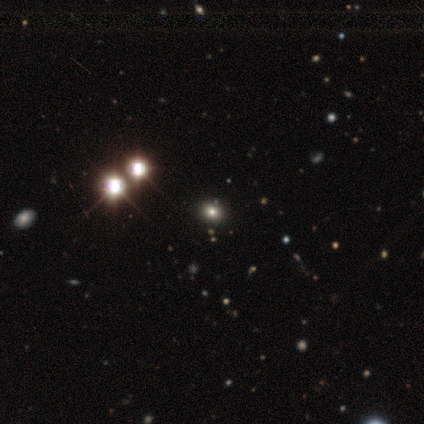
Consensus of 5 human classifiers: Q: Smooth or featured?
A: smooth (40%); tied with: star or artifact (40%)
Q: How rounded?
A: round (100%)
Q: Merging?
A: none (100%)